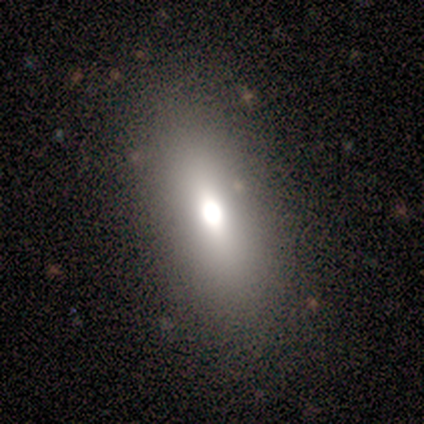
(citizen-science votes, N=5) A smooth galaxy with no disk features (60%) that is in between round and cigar-shaped (100%). Merging: none (67%).